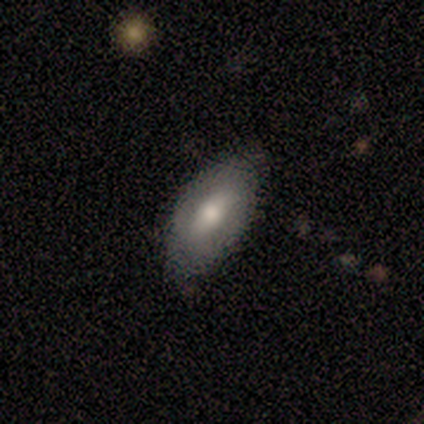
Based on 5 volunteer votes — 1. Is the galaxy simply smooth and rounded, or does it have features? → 40% smooth (tied), 40% featured or disk (tied), 20% star or artifact.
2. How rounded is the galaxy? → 100% in between, 0% round, 0% cigar-shaped.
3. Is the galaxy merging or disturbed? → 75% none, 25% minor disturbance, 0% major disturbance, 0% merger.